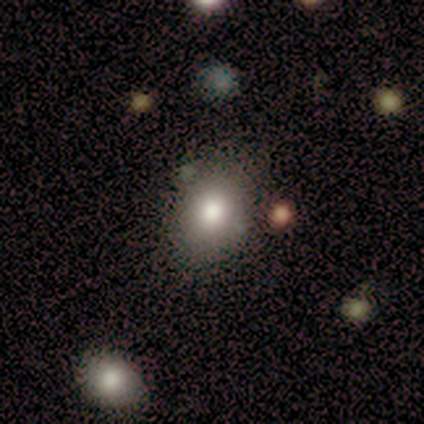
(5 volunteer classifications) Overall: smooth (100%). How rounded: round (60%; in between 40%). Merging: none (100%).